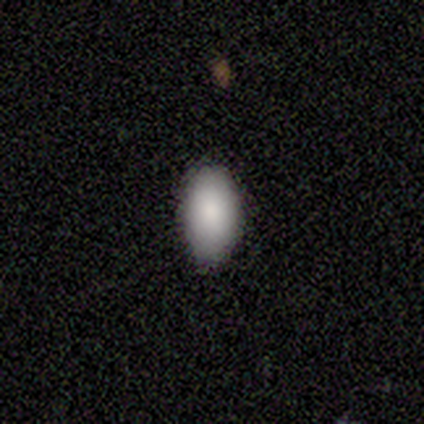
Overall: smooth (100%). How rounded: in between (100%). Merging: none (80%).